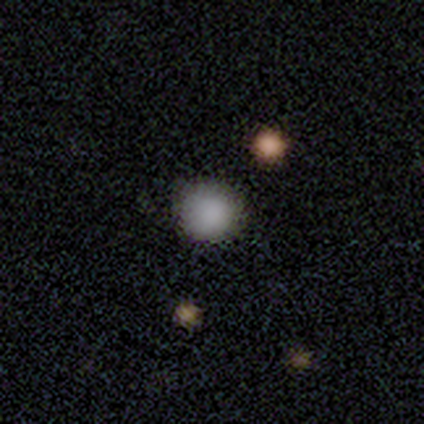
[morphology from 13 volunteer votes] This is clearly a smooth galaxy (92%). How rounded: clearly round (92%). Merging: clearly none (85%).